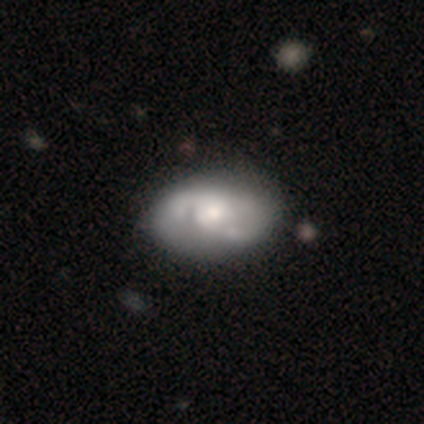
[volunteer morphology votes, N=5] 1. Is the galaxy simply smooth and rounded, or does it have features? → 60% featured or disk, 40% smooth, 0% star or artifact.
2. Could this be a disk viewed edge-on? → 100% no, 0% yes.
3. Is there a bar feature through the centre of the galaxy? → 100% no, 0% strong, 0% weak.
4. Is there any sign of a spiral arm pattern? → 100% yes, 0% no.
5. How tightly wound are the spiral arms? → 67% loose, 33% medium, 0% tight.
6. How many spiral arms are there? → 33% 2 (tied), 33% 3 (tied), 33% can't tell (tied), 0% 1, 0% 4, 0% more than 4.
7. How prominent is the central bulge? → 67% moderate, 33% large, 0% dominant, 0% small, 0% none.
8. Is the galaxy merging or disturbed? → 80% none, 20% minor disturbance, 0% major disturbance, 0% merger.